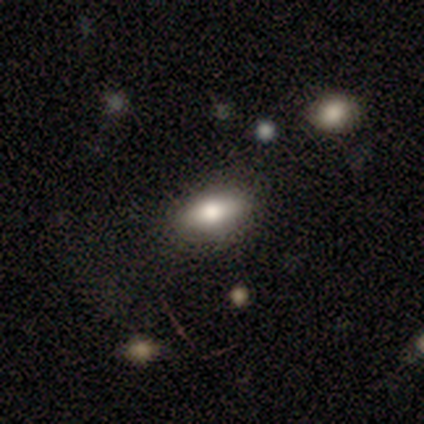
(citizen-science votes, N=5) smooth-or-featured: smooth: 100% | featured or disk: 0% | star or artifact: 0%
  how-rounded: in between: 100% | round: 0% | cigar-shaped: 0%
  merging: none: 100% | minor disturbance: 0% | major disturbance: 0% | merger: 0%